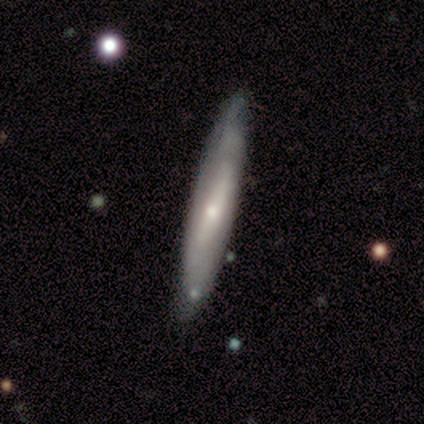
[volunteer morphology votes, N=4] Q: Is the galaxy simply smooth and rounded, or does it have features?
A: featured or disk — 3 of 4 (75%).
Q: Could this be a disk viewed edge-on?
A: yes — 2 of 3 (67%).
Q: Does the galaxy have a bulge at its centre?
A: rounded — 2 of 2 (100%).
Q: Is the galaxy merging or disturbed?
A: none — 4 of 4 (100%).